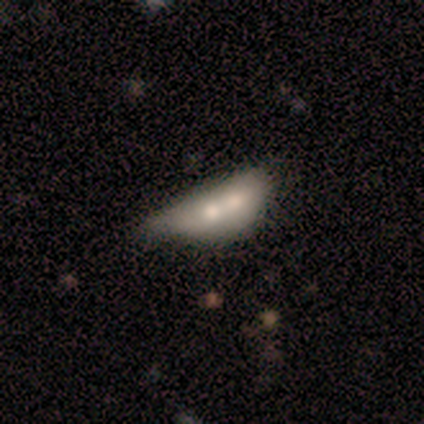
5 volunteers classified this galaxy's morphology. smooth 60%, featured or disk 40%, star or artifact 0%. Down the decision tree: how rounded — in between (100%); merging — minor disturbance (40%, tied with merger).